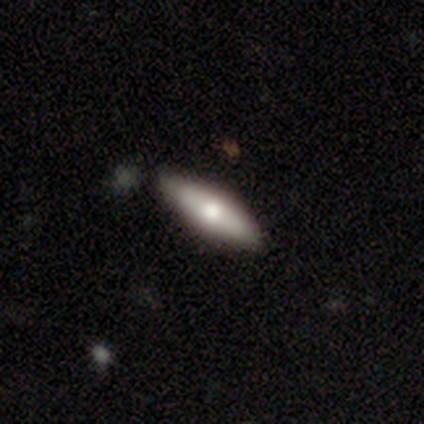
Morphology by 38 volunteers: Smooth or featured: smooth — 74% (featured or disk — 24%)
How rounded: in between — 50% (cigar-shaped — 46%)
Merging: none — 81% (minor disturbance — 14%)